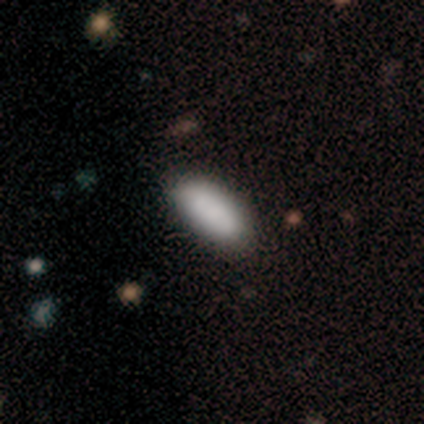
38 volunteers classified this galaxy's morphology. Smooth or featured: smooth — 87% (featured or disk — 8%)
How rounded: in between — 88% (cigar-shaped — 12%)
Merging: none — 53% (minor disturbance — 8%)